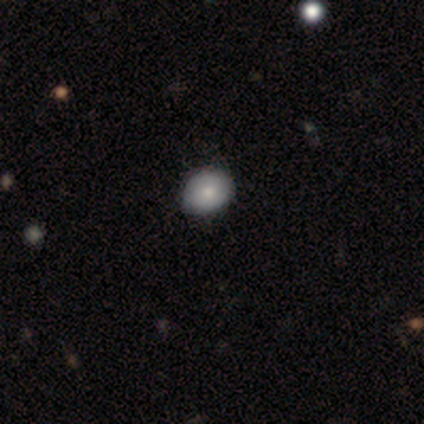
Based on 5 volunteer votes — Morphology: type=smooth (100%); roundness=in between (60%); merging=none (100%).